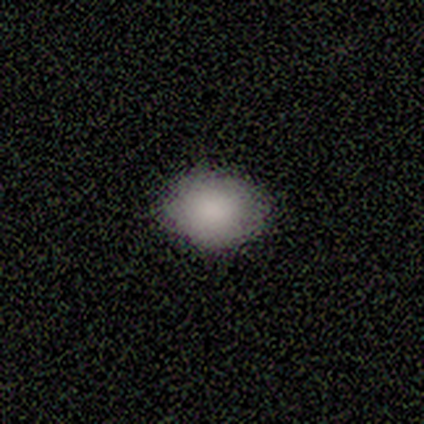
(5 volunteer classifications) A smooth galaxy with no disk features (100%) that is in between round and cigar-shaped (80%).

Vote fractions:
- Smooth or featured? smooth: 100% / featured or disk: 0% / star or artifact: 0%
- How rounded? in between: 80% / round: 20% / cigar-shaped: 0%
- Merging? none: 100% / minor disturbance: 0% / major disturbance: 0% / merger: 0%